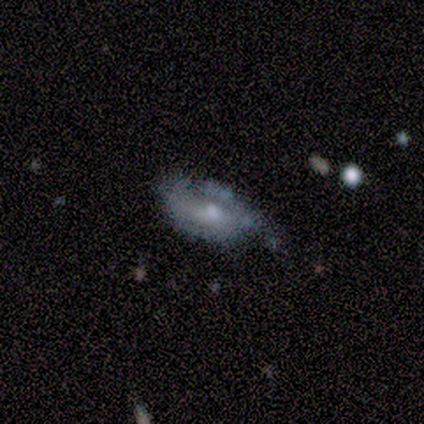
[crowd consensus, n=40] smooth-or-featured: featured or disk: 70% | smooth: 20% | star or artifact: 10%
  disk-edge-on: no: 100% | yes: 0%
    bar: no: 57% | weak: 32% | strong: 11%
    has-spiral-arms: yes: 68% | no: 32%
      spiral-winding: medium: 47% | tight: 37% | loose: 16%
      spiral-arm-count: 2: 37% | 1: 32% | can't tell: 32% | 3: 0% | 4: 0% | more than 4: 0%
    bulge-size: moderate: 46% | small: 43% | none: 7% | large: 4% | dominant: 0%
  merging: minor disturbance: 42% | major disturbance: 36% | none: 22% | merger: 0%